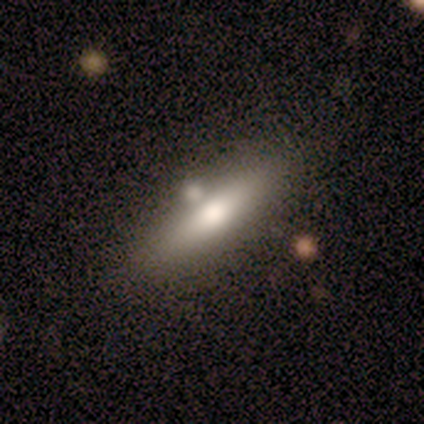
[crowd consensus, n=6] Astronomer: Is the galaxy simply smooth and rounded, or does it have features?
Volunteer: smooth — 67%.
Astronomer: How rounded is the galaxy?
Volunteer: in between — 50%, tied with cigar-shaped at 50%.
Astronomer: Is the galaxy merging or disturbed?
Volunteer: none — 83%.